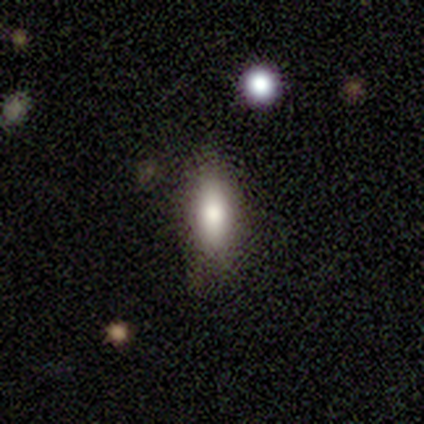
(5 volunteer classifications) Overall: smooth (60%; featured or disk 40%). How rounded: in between (100%). Merging: none (60%; major disturbance 20%).